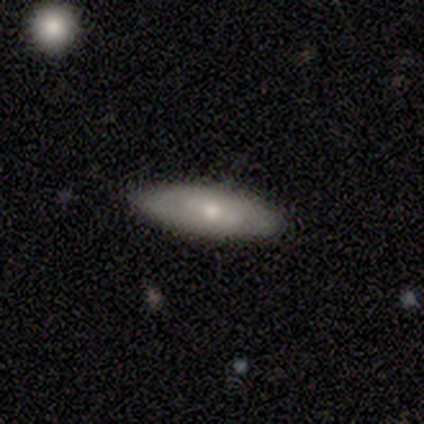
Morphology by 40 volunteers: Smooth or featured? smooth (62%)
How rounded? in between (52%)
Merging? none (84%)